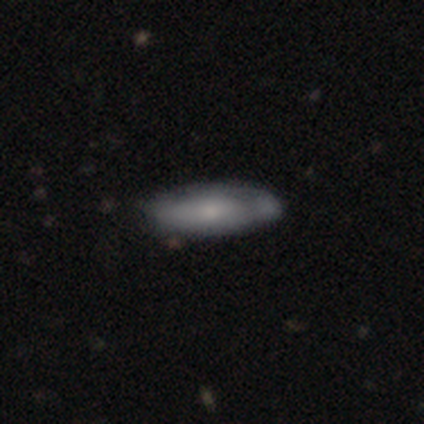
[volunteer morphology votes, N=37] Q: Smooth or featured?
A: smooth (51%); runner-up: featured or disk (46%)
Q: How rounded?
A: in between (68%); runner-up: cigar-shaped (32%)
Q: Merging?
A: none (75%); runner-up: minor disturbance (11%)